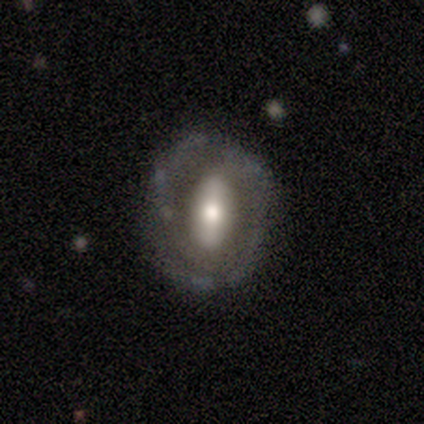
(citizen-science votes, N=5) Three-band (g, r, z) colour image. It shows a featured or disk galaxy (80%) with a strong bar (75%), 2 (67%) medium (67%) spiral arms (75%) and a large central bulge (50%, tied with moderate). Merging: none (80%).